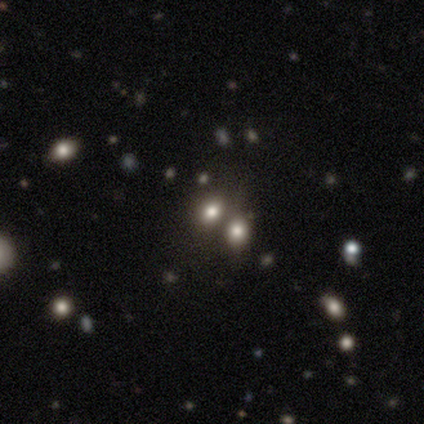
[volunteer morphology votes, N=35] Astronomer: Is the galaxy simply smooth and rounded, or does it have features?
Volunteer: smooth — 69%.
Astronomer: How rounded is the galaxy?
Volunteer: in between — 67%.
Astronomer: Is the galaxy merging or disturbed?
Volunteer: merger — 75%.